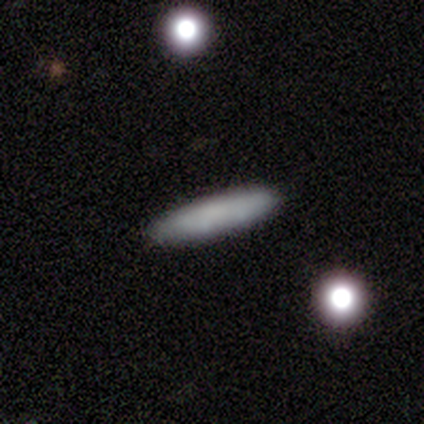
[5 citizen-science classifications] smooth_or_featured: smooth (p=0.80) [alt: featured or disk p=0.20]
how_rounded: cigar-shaped (p=1.00)
merging: none (p=1.00)